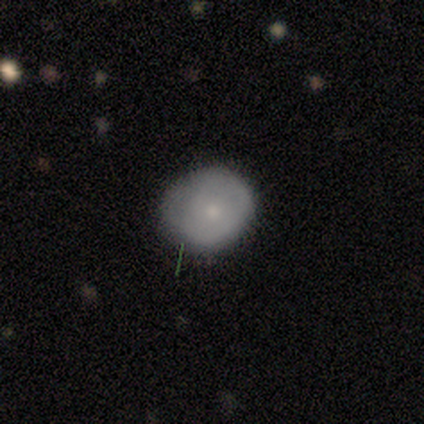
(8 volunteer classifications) smooth-or-featured: featured or disk: 62% | smooth: 38% | star or artifact: 0%
  disk-edge-on: no: 100% | yes: 0%
    bar: no: 100% | strong: 0% | weak: 0%
    has-spiral-arms: no: 100% | yes: 0%
    bulge-size: small: 100% | dominant: 0% | large: 0% | moderate: 0% | none: 0%
  merging: none: 50% (tied) | minor disturbance: 50% (tied) | major disturbance: 0% | merger: 0%